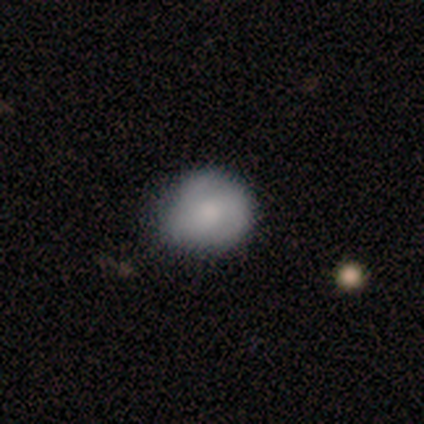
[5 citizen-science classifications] A smooth galaxy with no disk features (60%) that is in between round and cigar-shaped (67%).

Vote fractions:
- Smooth or featured? smooth: 60% / featured or disk: 20% / star or artifact: 20%
- How rounded? in between: 67% / round: 33% / cigar-shaped: 0%
- Merging? none: 50% / minor disturbance: 25% / major disturbance: 25% / merger: 0%